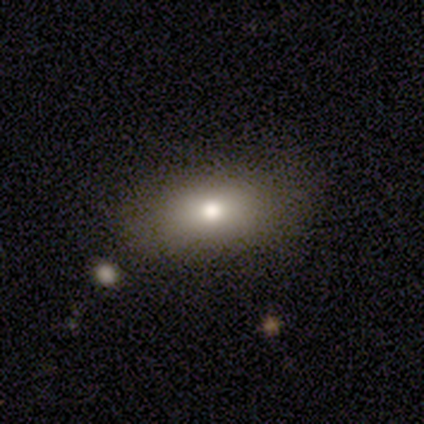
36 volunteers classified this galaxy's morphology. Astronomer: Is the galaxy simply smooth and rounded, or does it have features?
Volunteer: smooth — 67%.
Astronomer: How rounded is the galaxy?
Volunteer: in between — 92%.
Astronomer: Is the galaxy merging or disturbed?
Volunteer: none — 96%.